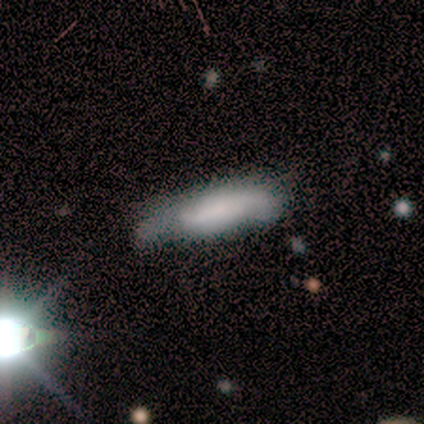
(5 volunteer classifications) smooth-or-featured: smooth: 40% (tied) | featured or disk: 40% (tied) | star or artifact: 20%
  how-rounded: in between: 50% (tied) | cigar-shaped: 50% (tied) | round: 0%
  merging: none: 50% | major disturbance: 25% | merger: 25% | minor disturbance: 0%